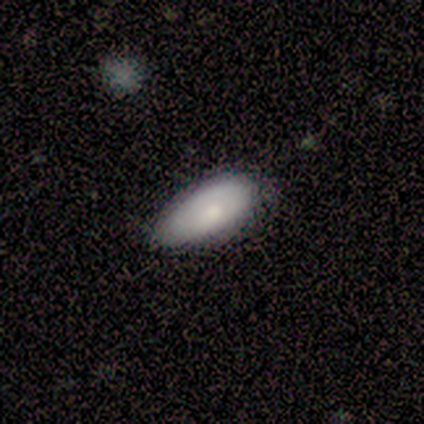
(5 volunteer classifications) Smooth or featured?
  - smooth: 60% *
  - featured or disk: 40%
  - star or artifact: 0%
How rounded?
  - in between: 100% *
  - round: 0%
  - cigar-shaped: 0%
Merging?
  - none: 80% *
  - minor disturbance: 20%
  - major disturbance: 0%
  - merger: 0%